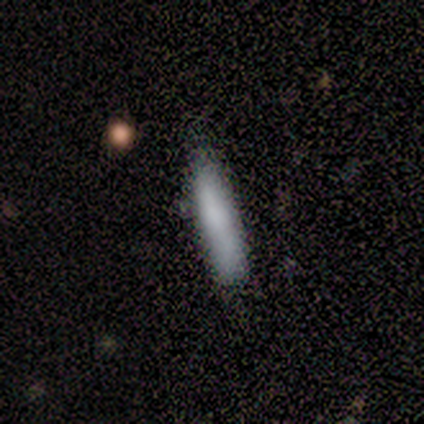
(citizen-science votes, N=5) Q: Smooth or featured?
A: smooth (100%)
Q: How rounded?
A: cigar-shaped (100%)
Q: Merging?
A: none (80%); runner-up: minor disturbance (20%)